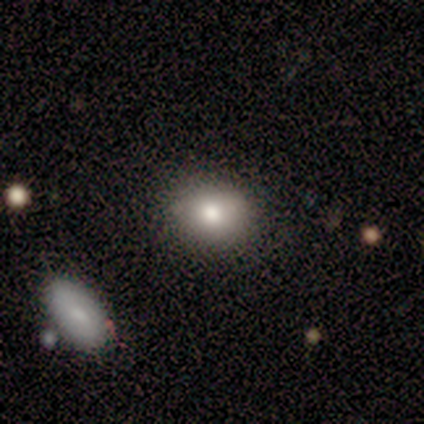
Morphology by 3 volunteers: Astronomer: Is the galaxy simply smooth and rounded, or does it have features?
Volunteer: smooth — 67%.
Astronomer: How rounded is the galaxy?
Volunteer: in between — 100%.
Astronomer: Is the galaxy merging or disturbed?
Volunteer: none — 100%.